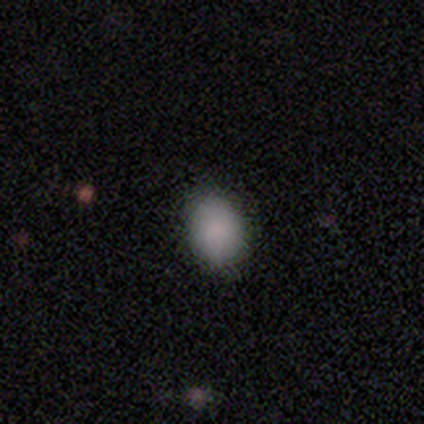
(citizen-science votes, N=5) smooth-or-featured: smooth: 100% | featured or disk: 0% | star or artifact: 0%
  how-rounded: round: 80% | in between: 20% | cigar-shaped: 0%
  merging: none: 80% | major disturbance: 20% | minor disturbance: 0% | merger: 0%